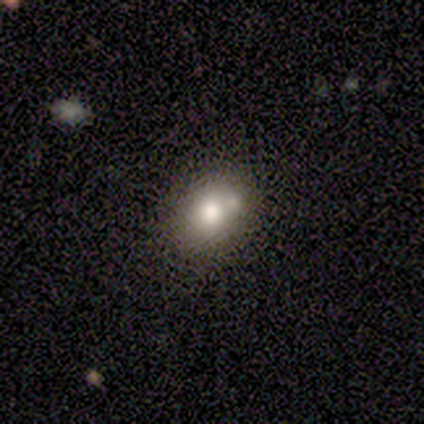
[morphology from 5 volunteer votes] smooth 80%, featured or disk 20%, star or artifact 0%. Down the decision tree: how rounded — round (75%); merging — none (40%, tied with merger).